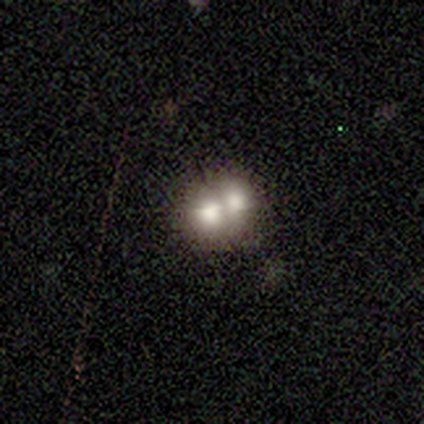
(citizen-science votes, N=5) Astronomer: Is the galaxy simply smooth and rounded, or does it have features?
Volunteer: smooth — 60%.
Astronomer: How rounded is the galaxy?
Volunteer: in between — 67%.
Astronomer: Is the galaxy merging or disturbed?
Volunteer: merger — 75%.